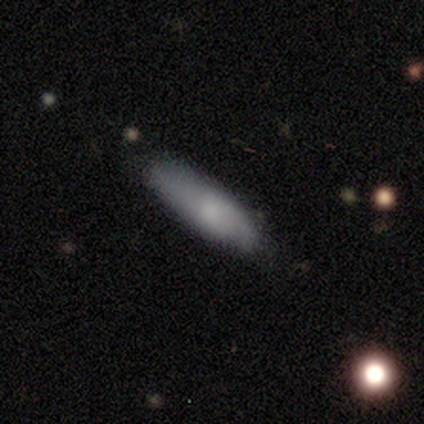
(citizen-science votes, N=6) A smooth galaxy with no disk features (50%) that is in between round and cigar-shaped (67%). Merging: minor disturbance (100%).